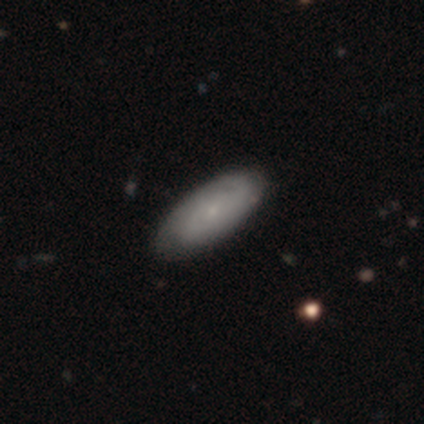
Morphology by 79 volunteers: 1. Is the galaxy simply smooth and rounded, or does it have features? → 54% smooth, 42% featured or disk, 4% star or artifact.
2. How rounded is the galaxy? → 88% in between, 9% cigar-shaped, 2% round.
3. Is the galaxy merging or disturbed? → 43% none, 5% minor disturbance, 1% major disturbance, 0% merger.